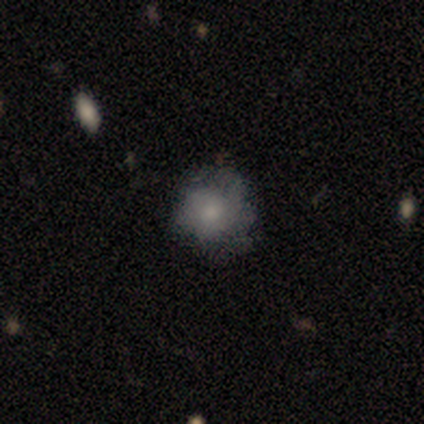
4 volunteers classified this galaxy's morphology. Smooth or featured? smooth (50%, tied with featured or disk)
How rounded? round (100%)
Merging? none (75%)